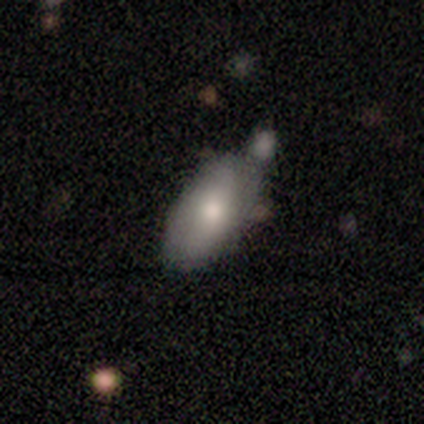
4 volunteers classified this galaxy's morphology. A smooth galaxy with no disk features (75%) that is in between round and cigar-shaped (100%).

Vote fractions:
- Smooth or featured? smooth: 75% / star or artifact: 25% / featured or disk: 0%
- How rounded? in between: 100% / round: 0% / cigar-shaped: 0%
- Merging? minor disturbance: 67% / merger: 33% / none: 0% / major disturbance: 0%